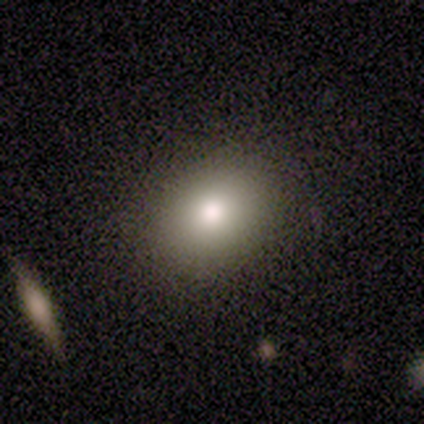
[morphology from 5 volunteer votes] smooth-or-featured: smooth: 100% | featured or disk: 0% | star or artifact: 0%
  how-rounded: in between: 60% | round: 40% | cigar-shaped: 0%
  merging: none: 100% | minor disturbance: 0% | major disturbance: 0% | merger: 0%